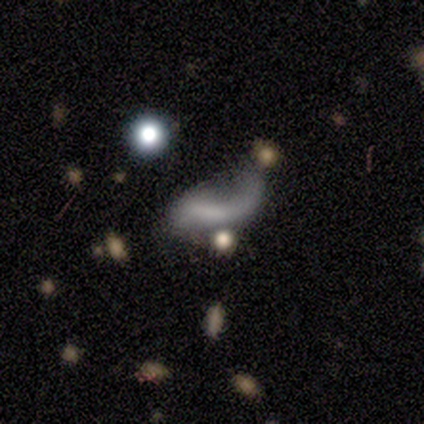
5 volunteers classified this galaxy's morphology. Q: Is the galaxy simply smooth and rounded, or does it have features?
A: smooth — 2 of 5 (40%, tied with star or artifact).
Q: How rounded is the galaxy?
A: in between — 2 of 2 (100%).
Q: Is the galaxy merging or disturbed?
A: major disturbance — 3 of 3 (100%).